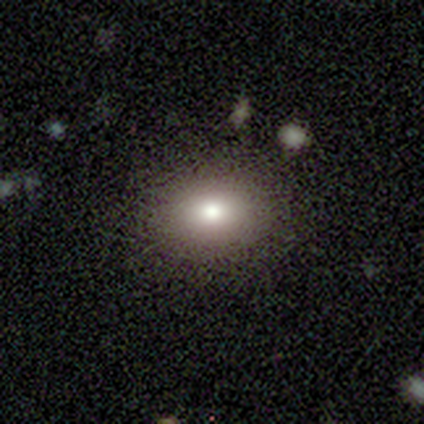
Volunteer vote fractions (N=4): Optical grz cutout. It shows a smooth galaxy with no disk features (75%) that is round (67%). Merging: none (100%).